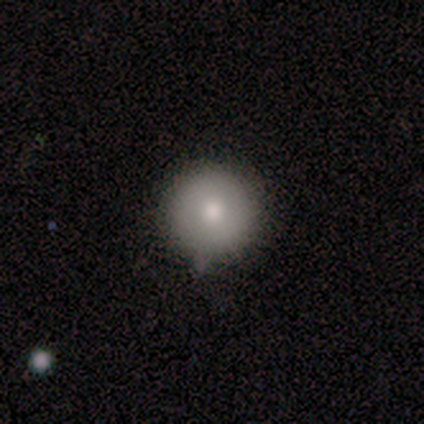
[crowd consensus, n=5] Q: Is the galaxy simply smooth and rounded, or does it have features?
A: smooth — 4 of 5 (80%).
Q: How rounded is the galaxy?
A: round — 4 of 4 (100%).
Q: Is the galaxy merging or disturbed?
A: none — 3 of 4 (75%).